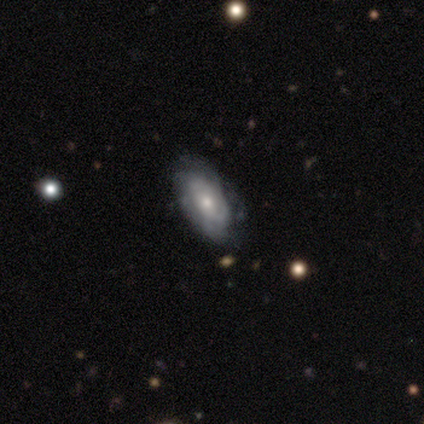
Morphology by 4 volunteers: Smooth or featured? 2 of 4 (50%) said smooth. How rounded? 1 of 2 (50%, tied with in between) said round. Merging? 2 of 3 (67%) said none.